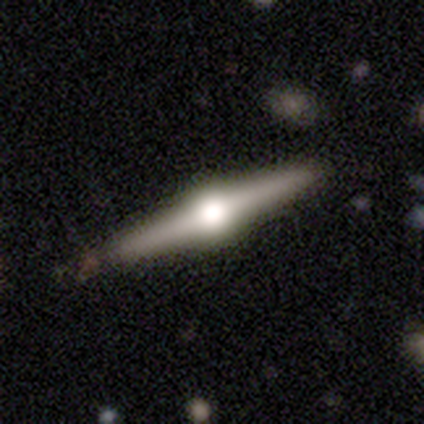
Smooth or featured: featured or disk — 100%
Edge-on disk: yes — 100%
Edge-on bulge: rounded — 100%
Merging: none — 100%